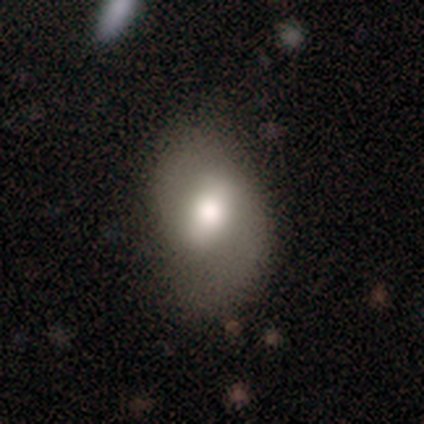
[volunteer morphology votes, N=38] A featured or disk galaxy (53%) with a weak bar (55%), 2 (92%) medium (50%) spiral arms (60%) and a moderate central bulge (65%).

Vote fractions:
- Smooth or featured? featured or disk: 53% / smooth: 42% / star or artifact: 5%
- Edge-on disk? no: 100% / yes: 0%
- Bar? weak: 55% / strong: 30% / no: 15%
- Spiral arms? yes: 60% / no: 40%
- Spiral winding? medium: 50% / loose: 42% / tight: 8%
- Spiral arm count? 2: 92% / can't tell: 8% / 1: 0% / 3: 0% / 4: 0% / more than 4: 0%
- Bulge size? moderate: 65% / large: 25% / small: 5% / none: 5% / dominant: 0%
- Merging? none: 64% / minor disturbance: 31% / major disturbance: 6% / merger: 0%